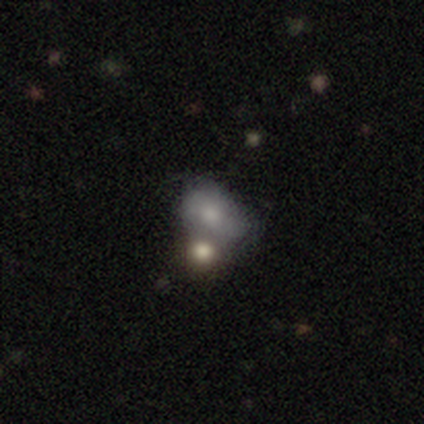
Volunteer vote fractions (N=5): Smooth or featured? 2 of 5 (40%, tied with star or artifact) said smooth. How rounded? 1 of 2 (50%, tied with in between) said round. Merging? 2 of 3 (67%) said none.